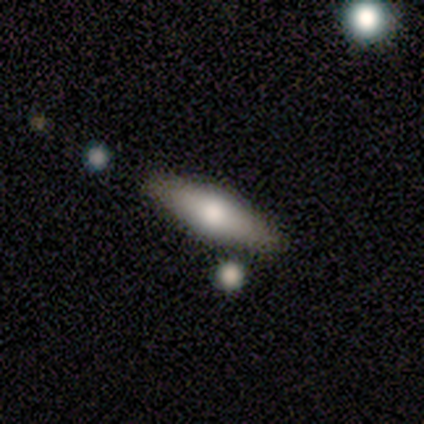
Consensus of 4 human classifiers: This is possibly a smooth galaxy (50%, tied with featured or disk). How rounded: possibly in between (50%, tied with cigar-shaped). Merging: clearly none (100%).